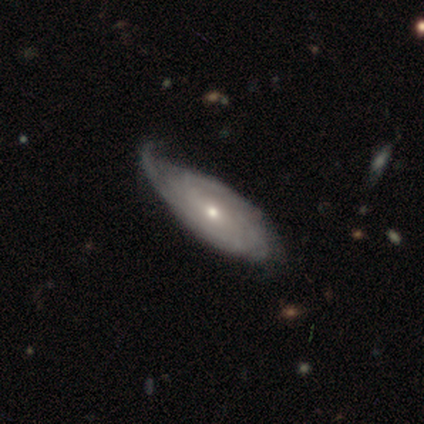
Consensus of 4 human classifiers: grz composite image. It shows a smooth galaxy with no disk features (50%, tied with featured or disk) that is in between round and cigar-shaped (100%). Merging: minor disturbance (75%).